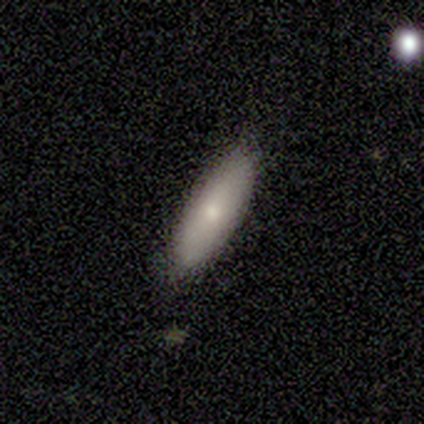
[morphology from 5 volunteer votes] Smooth or featured? smooth (100%)
How rounded? in between (60%)
Merging? none (100%)